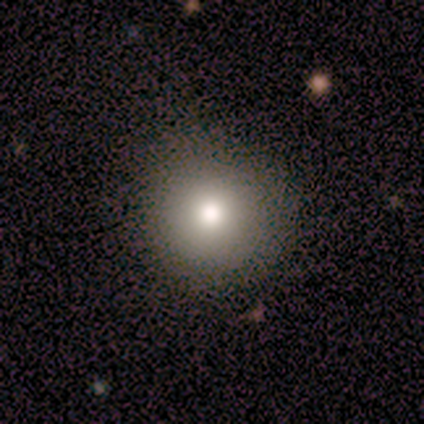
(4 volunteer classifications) Smooth or featured: smooth — 75% (featured or disk — 25%)
How rounded: round — 100%
Merging: none — 100%